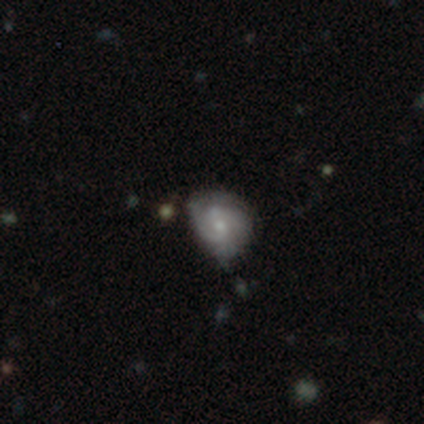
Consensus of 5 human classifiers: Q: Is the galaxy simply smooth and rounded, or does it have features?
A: featured or disk — 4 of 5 (80%).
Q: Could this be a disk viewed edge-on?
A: no — 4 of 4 (100%).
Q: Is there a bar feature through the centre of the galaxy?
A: weak — 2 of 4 (50%, tied with no).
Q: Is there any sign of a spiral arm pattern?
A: yes — 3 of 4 (75%).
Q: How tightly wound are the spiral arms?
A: tight — 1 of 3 (33%, tied with medium and loose).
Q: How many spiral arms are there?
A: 2 — 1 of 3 (33%, tied with 3 and can't tell).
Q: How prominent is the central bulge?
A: moderate — 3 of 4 (75%).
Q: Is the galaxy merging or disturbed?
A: minor disturbance — 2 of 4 (50%).